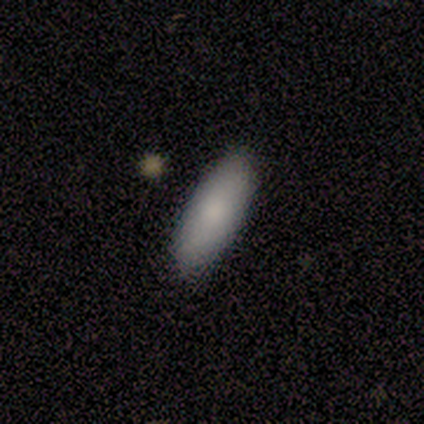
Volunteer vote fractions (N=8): smooth-or-featured: smooth: 75% | featured or disk: 12% | star or artifact: 12%
  how-rounded: in between: 50% (tied) | cigar-shaped: 50% (tied) | round: 0%
  merging: none: 100% | minor disturbance: 0% | major disturbance: 0% | merger: 0%